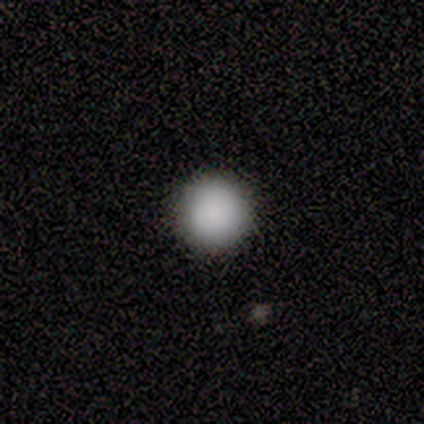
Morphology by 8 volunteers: smooth-or-featured: smooth: 100% | featured or disk: 0% | star or artifact: 0%
  how-rounded: round: 100% | in between: 0% | cigar-shaped: 0%
  merging: none: 100% | minor disturbance: 0% | major disturbance: 0% | merger: 0%